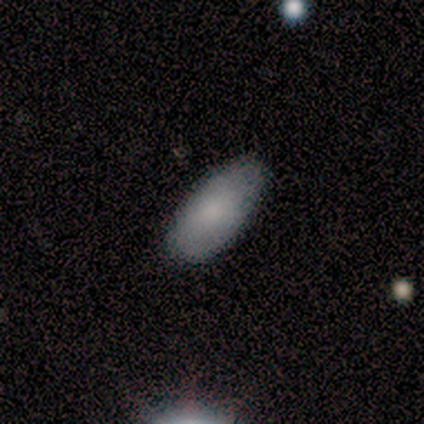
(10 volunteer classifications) Morphology: type=smooth (90%); roundness=in between (100%); merging=none (89%).